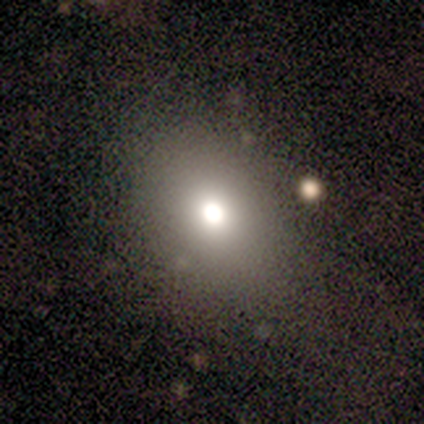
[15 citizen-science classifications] Smooth or featured?
  - smooth: 67% *
  - star or artifact: 20%
  - featured or disk: 13%
How rounded?
  - in between: 60% *
  - round: 40%
  - cigar-shaped: 0%
Merging?
  - none: 75% *
  - minor disturbance: 17%
  - merger: 8%
  - major disturbance: 0%